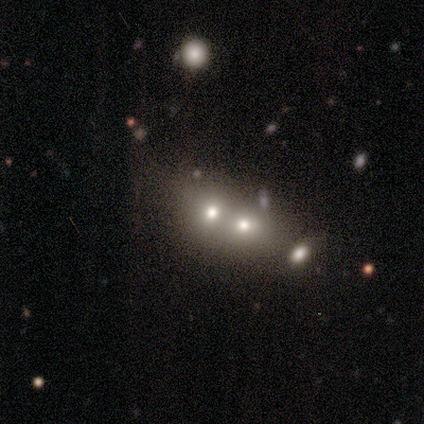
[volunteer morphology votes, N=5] This appears to be a smooth galaxy with no disk features (40%, tied with featured or disk) that is round (100%). Merging: merger (75%).